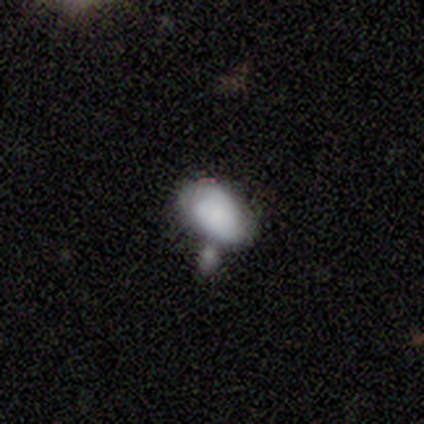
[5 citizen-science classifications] Morphology: type=smooth (80%); roundness=in between (100%); merging=none (40%, tied with merger).